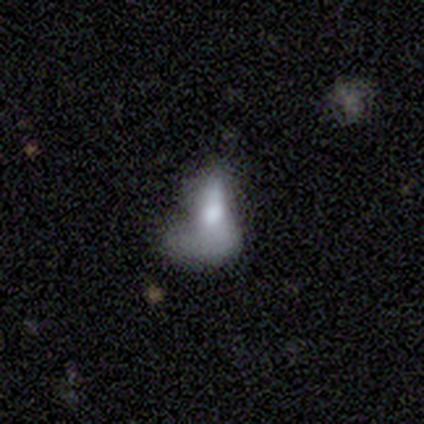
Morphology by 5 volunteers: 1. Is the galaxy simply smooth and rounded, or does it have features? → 60% smooth, 40% featured or disk, 0% star or artifact.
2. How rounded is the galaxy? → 67% in between, 33% round, 0% cigar-shaped.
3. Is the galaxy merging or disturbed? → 60% major disturbance, 20% minor disturbance, 20% merger, 0% none.